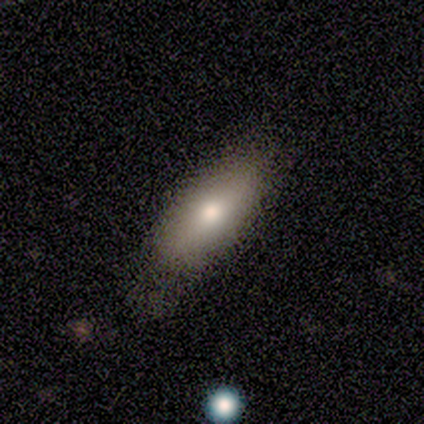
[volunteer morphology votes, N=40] Q: Smooth or featured?
A: smooth (82%); runner-up: featured or disk (12%)
Q: How rounded?
A: in between (79%); runner-up: cigar-shaped (21%)
Q: Merging?
A: none (37%); runner-up: minor disturbance (24%)